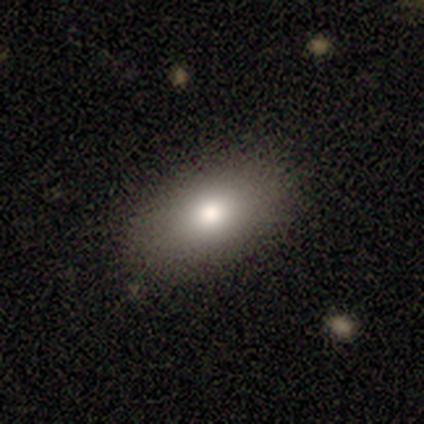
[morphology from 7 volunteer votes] Smooth or featured?
  - smooth: 86% *
  - featured or disk: 14%
  - star or artifact: 0%
How rounded?
  - in between: 100% *
  - round: 0%
  - cigar-shaped: 0%
Merging?
  - none: 71% *
  - minor disturbance: 14%
  - major disturbance: 14%
  - merger: 0%